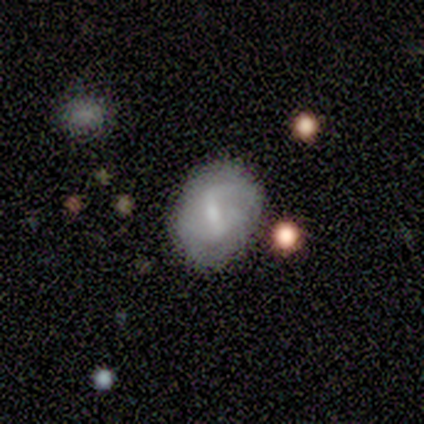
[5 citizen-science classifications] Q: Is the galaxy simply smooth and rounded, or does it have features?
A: smooth — 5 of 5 (100%).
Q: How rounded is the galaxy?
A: round — 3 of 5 (60%).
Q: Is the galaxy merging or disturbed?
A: none — 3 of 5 (60%).